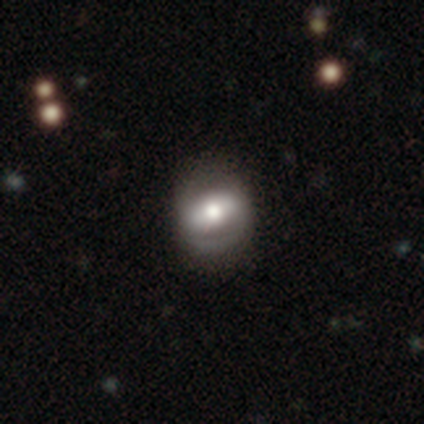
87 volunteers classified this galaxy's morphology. Smooth or featured?
  - featured or disk: 47% *
  - smooth: 44%
  - star or artifact: 9%
Edge-on disk?
  - no: 93% *
  - yes: 7%
Bar?
  - strong: 55% *
  - weak: 24%
  - no: 21%
Spiral arms?
  - yes: 66% *
  - no: 34%
Spiral winding?
  - tight: 48% *
  - medium: 36%
  - loose: 16%
Spiral arm count?
  - 2: 76% *
  - can't tell: 16%
  - 1: 8%
  - 3: 0%
  - 4: 0%
  - more than 4: 0%
Bulge size?
  - moderate: 68% *
  - large: 24%
  - small: 5%
  - dominant: 3%
  - none: 0%
Merging?
  - none: 77% *
  - minor disturbance: 18%
  - major disturbance: 5%
  - merger: 0%